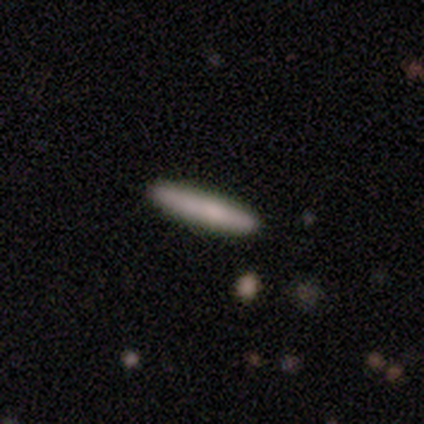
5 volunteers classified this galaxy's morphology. Smooth or featured?
  - smooth: 60% *
  - featured or disk: 20%
  - star or artifact: 20%
How rounded?
  - cigar-shaped: 100% *
  - round: 0%
  - in between: 0%
Merging?
  - none: 100% *
  - minor disturbance: 0%
  - major disturbance: 0%
  - merger: 0%